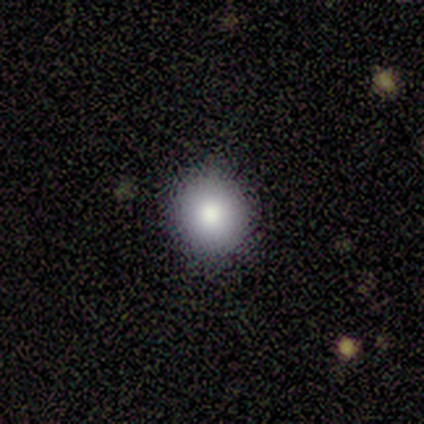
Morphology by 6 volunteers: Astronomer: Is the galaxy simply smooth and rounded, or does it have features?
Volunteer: smooth — 100%.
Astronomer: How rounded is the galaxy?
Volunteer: round — 83%.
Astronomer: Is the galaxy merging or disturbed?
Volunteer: none — 100%.